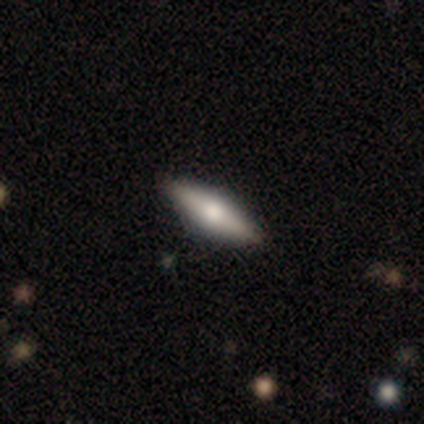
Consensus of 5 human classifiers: smooth_or_featured: smooth (p=0.60) [alt: featured or disk p=0.40]
how_rounded: in between (p=0.67) [alt: cigar-shaped p=0.33]
merging: none (p=1.00)